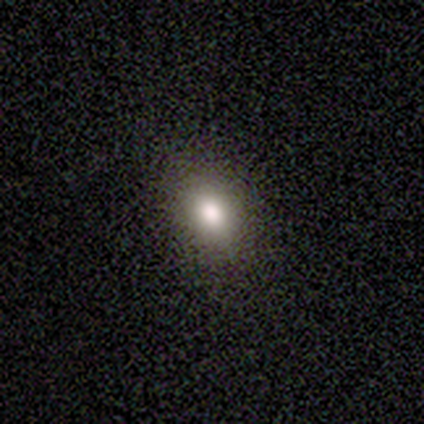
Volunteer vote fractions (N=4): Smooth or featured? smooth (75%)
How rounded? in between (100%)
Merging? none (67%)